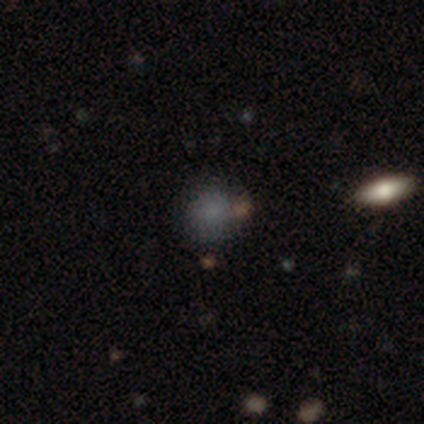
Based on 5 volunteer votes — Morphology: type=smooth (80%); roundness=round (50%, tied with in between); merging=none (50%).